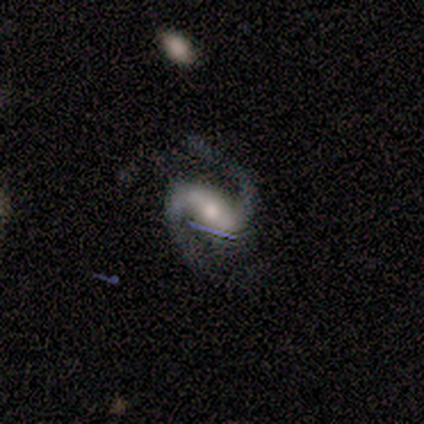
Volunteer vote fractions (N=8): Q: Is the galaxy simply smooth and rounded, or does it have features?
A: featured or disk — 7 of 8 (88%).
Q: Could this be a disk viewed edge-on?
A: no — 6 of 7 (86%).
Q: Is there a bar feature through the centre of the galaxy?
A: weak — 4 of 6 (67%).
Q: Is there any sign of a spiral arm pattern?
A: yes — 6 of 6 (100%).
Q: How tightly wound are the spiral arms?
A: medium — 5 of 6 (83%).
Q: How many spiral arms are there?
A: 2 — 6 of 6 (100%).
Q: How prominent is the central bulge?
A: moderate — 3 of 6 (50%, tied with small).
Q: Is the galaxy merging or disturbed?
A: none — 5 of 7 (71%).